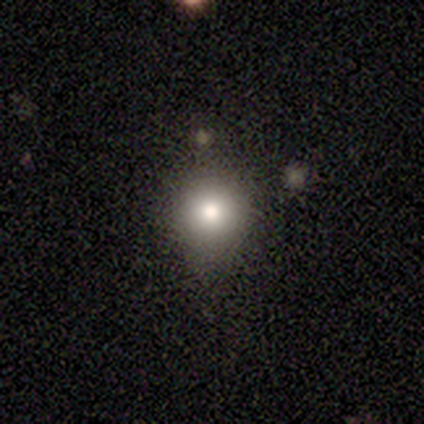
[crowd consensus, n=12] A smooth galaxy with no disk features (83%) that is round (90%). Merging: none (80%).